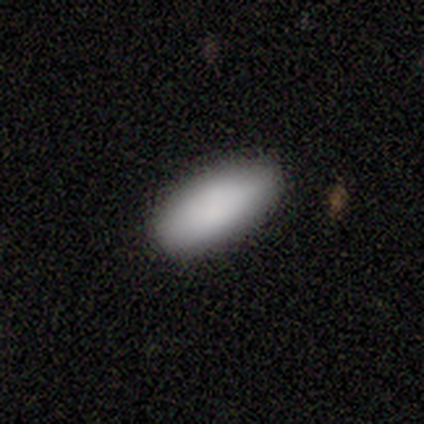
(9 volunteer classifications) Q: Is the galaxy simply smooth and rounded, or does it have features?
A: smooth — 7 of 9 (78%).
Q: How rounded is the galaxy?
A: in between — 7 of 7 (100%).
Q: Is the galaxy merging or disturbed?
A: none — 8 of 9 (89%).